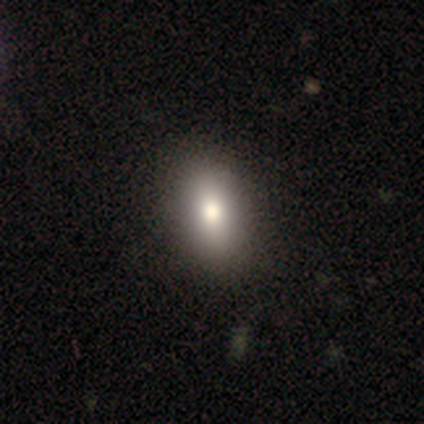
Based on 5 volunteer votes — smooth_or_featured: smooth (p=0.60) [alt: featured or disk p=0.40]
how_rounded: in between (p=1.00)
merging: none (p=1.00)